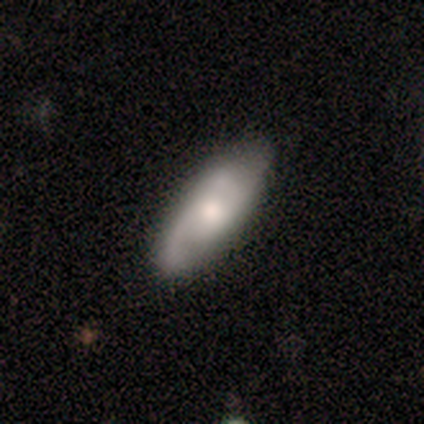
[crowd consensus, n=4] Overall: smooth (50%, tied with featured or disk). How rounded: in between (100%). Merging: none (100%).